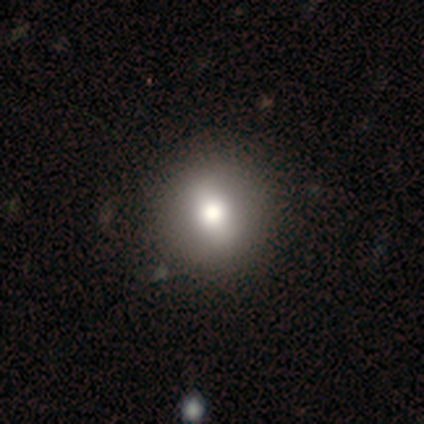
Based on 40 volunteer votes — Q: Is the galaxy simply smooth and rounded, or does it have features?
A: smooth — 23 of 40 (57%).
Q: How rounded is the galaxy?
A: round — 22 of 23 (96%).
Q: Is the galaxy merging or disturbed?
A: none — 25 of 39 (64%).